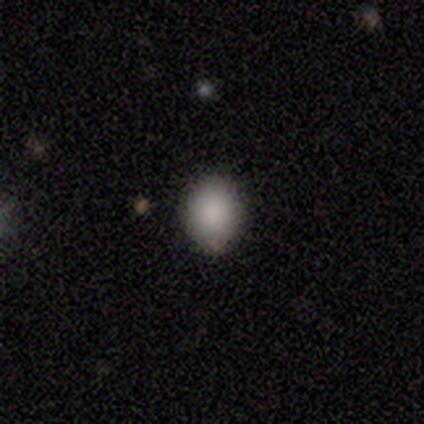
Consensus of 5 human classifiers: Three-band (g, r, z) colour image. It shows a smooth galaxy with no disk features (60%) that is round (67%). Merging: none (50%, tied with minor disturbance).